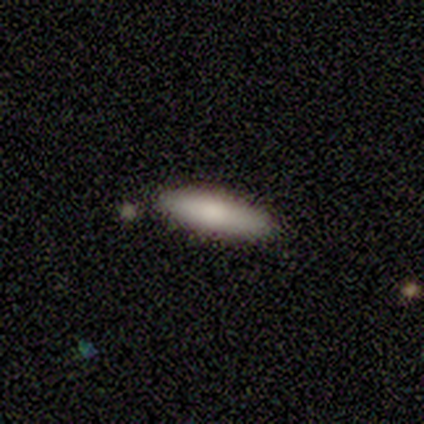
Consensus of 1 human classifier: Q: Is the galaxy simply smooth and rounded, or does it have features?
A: featured or disk — 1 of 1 (100%).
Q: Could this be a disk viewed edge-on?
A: no — 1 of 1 (100%).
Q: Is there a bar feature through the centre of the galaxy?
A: no — 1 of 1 (100%).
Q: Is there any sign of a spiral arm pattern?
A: no — 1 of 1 (100%).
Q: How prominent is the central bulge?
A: moderate — 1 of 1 (100%).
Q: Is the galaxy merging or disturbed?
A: minor disturbance — 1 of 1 (100%).